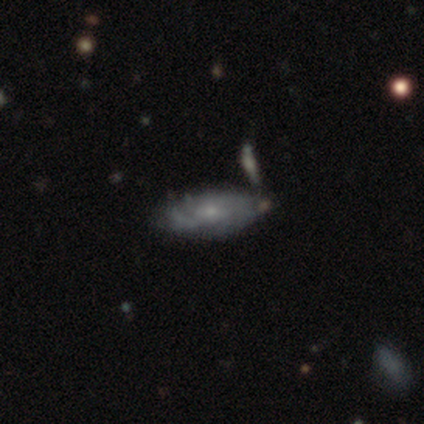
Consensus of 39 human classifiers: Smooth or featured? 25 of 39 (64%) said featured or disk. Edge-on disk? 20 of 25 (80%) said no. Bar? 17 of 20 (85%) said no. Spiral arms? 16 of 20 (80%) said yes. Spiral winding? 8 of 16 (50%) said tight. Spiral arm count? 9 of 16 (56%) said can't tell. Bulge size? 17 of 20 (85%) said small. Merging? 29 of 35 (83%) said none.